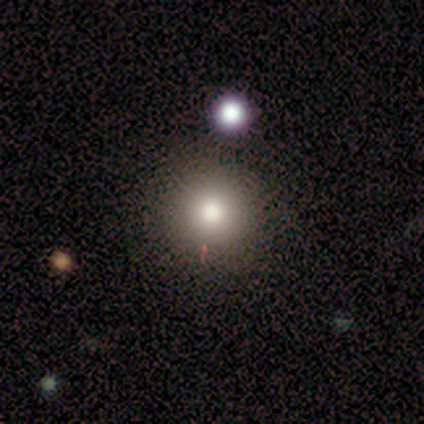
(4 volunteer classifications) Overall: smooth (75%). How rounded: round (100%). Merging: none (75%).